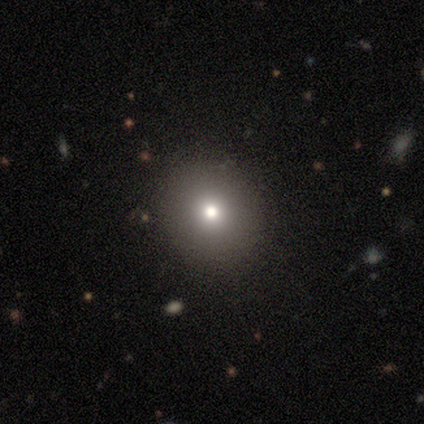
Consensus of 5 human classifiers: This appears to be a smooth galaxy with no disk features (60%) that is round (67%). Merging: none (100%).